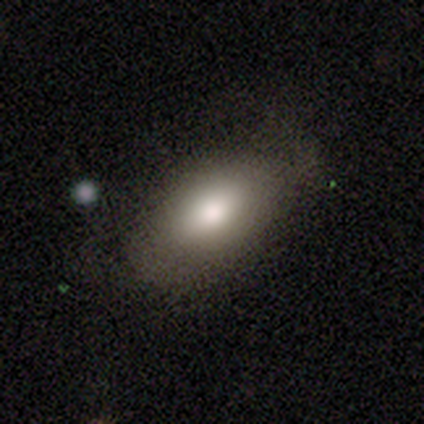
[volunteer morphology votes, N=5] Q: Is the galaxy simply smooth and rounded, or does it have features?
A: smooth — 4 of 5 (80%).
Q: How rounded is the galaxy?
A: in between — 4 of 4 (100%).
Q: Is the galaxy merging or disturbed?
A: none — 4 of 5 (80%).